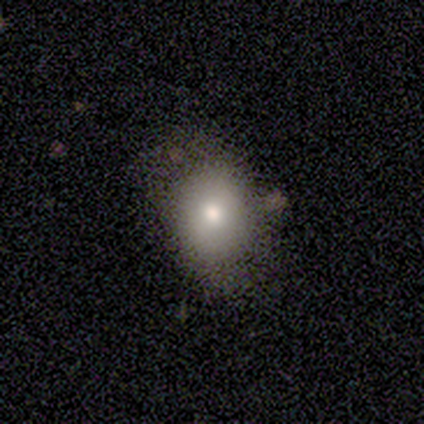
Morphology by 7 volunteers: Smooth or featured: smooth — 86% (star or artifact — 14%)
How rounded: in between — 67% (round — 33%)
Merging: none — 67% (minor disturbance — 33%)